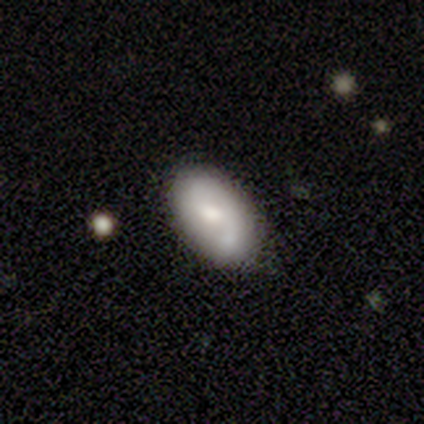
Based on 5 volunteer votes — Overall: smooth (60%; featured or disk 20%). How rounded: in between (100%). Merging: none (50%; minor disturbance 25%).